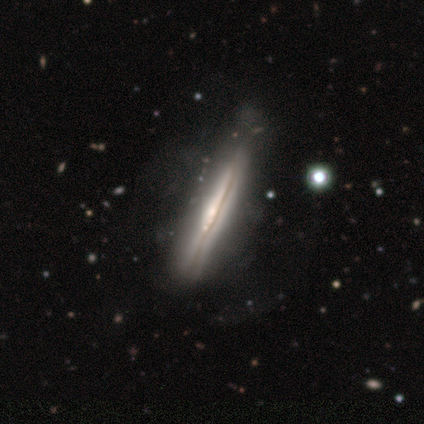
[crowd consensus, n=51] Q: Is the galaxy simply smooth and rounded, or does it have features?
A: featured or disk — 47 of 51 (92%).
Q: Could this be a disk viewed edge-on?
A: yes — 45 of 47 (96%).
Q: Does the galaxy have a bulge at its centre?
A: rounded — 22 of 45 (49%).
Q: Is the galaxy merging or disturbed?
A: none — 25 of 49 (51%).